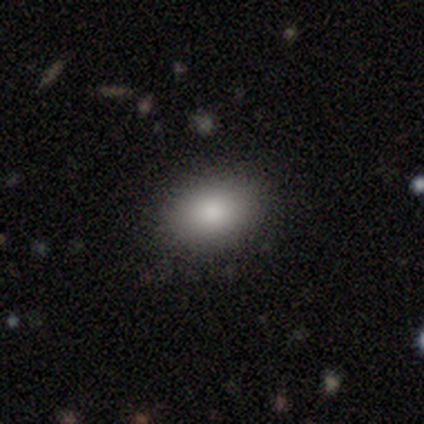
Smooth or featured? smooth (80%)
How rounded? round (50%, tied with in between)
Merging? none (100%)